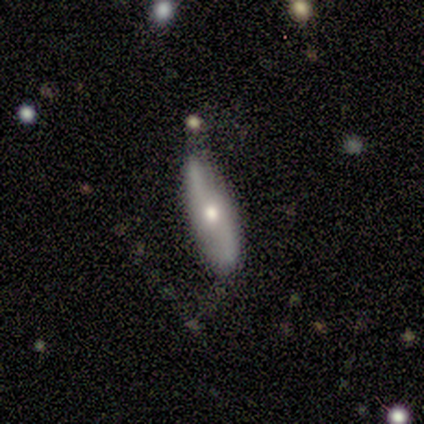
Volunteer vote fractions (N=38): smooth_or_featured: featured or disk (p=0.66) [alt: smooth p=0.29]
disk_edge_on: no (p=0.80) [alt: yes p=0.20]
bar: no (p=0.75) [alt: weak p=0.25]
has_spiral_arms: yes (p=0.85) [alt: no p=0.15]
spiral_winding: loose (p=0.71) [alt: medium p=0.29]
spiral_arm_count: 2 (p=1.00)
bulge_size: moderate (p=0.70) [alt: small p=0.25]
merging: none (p=0.64) [alt: minor disturbance p=0.22]